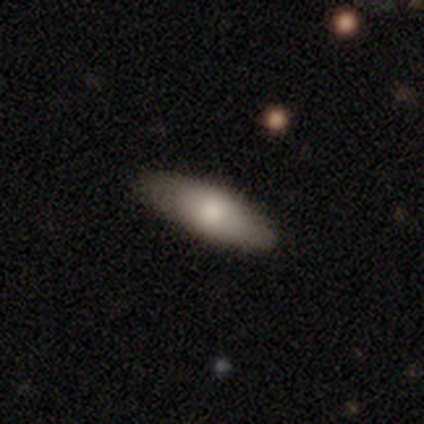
Volunteers were most divided on "merging": none: 67%, minor disturbance: 33%, major disturbance: 0%, merger: 0%. More confident: smooth or featured — smooth (100%); how rounded — in between (100%).